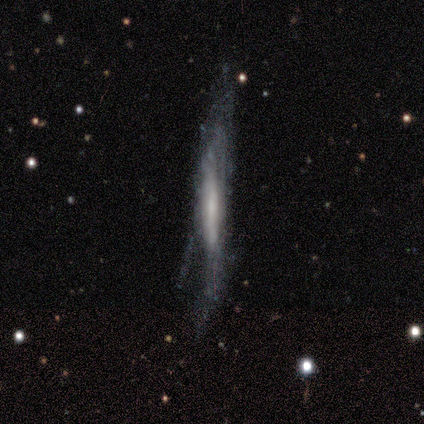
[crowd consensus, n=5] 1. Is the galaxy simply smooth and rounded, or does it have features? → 100% featured or disk, 0% smooth, 0% star or artifact.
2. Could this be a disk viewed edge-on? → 60% yes, 40% no.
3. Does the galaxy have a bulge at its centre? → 100% none, 0% boxy, 0% rounded.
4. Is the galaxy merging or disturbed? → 80% minor disturbance, 20% none, 0% major disturbance, 0% merger.